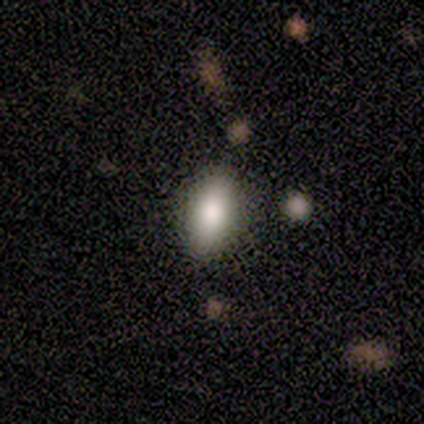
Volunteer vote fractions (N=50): Smooth or featured?
  - smooth: 72% *
  - featured or disk: 26%
  - star or artifact: 2%
How rounded?
  - in between: 86% *
  - cigar-shaped: 14%
  - round: 0%
Merging?
  - none: 88% *
  - minor disturbance: 4%
  - major disturbance: 4%
  - merger: 4%